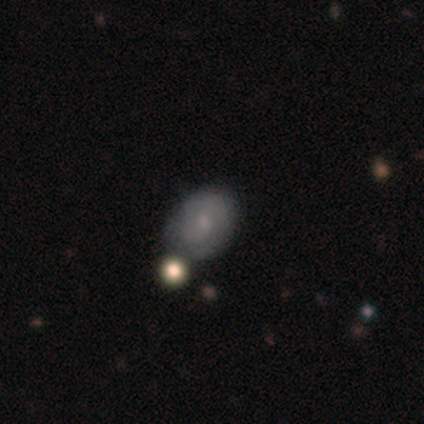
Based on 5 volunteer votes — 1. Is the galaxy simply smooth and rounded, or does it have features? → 60% featured or disk, 40% smooth, 0% star or artifact.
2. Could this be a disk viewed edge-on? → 100% no, 0% yes.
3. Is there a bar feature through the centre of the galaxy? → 67% no, 33% weak, 0% strong.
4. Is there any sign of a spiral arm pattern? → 67% yes, 33% no.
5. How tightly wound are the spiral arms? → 100% tight, 0% medium, 0% loose.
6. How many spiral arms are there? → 50% 2 (tied), 50% 3 (tied), 0% 1, 0% 4, 0% more than 4, 0% can't tell.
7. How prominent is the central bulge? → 67% moderate, 33% small, 0% dominant, 0% large, 0% none.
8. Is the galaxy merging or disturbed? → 100% none, 0% minor disturbance, 0% major disturbance, 0% merger.